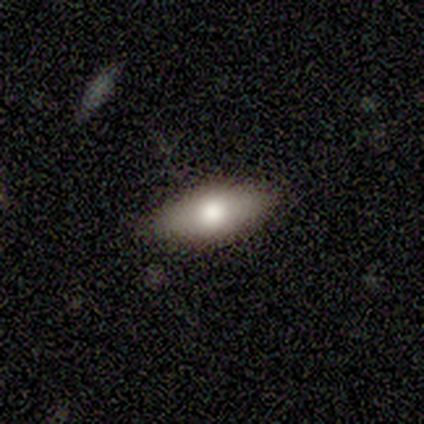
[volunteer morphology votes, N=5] Overall: smooth (100%). How rounded: in between (100%). Merging: none (80%).